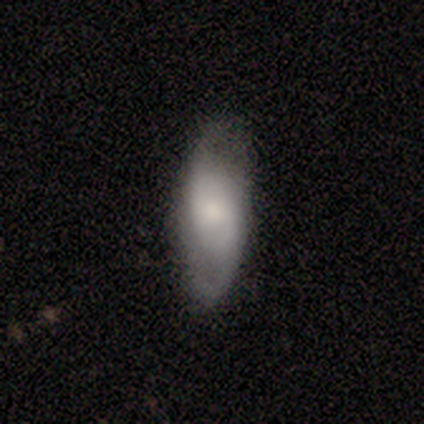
A featured or disk galaxy (50%) with no bar (100%), 2 (50%, tied with can't tell) tight (50%, tied with medium) spiral arms (100%) and a moderate central bulge (100%). Merging: none (33%, tied with minor disturbance and major disturbance).